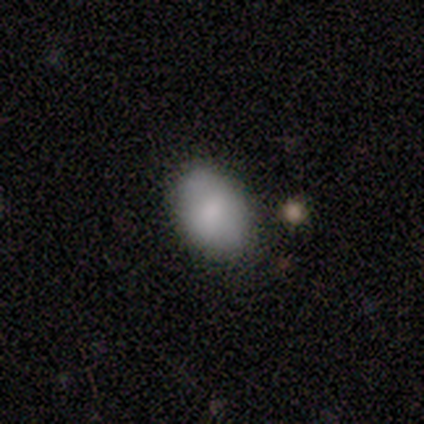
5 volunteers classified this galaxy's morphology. Volunteers were most divided on "how rounded": in between: 67%, round: 33%, cigar-shaped: 0%. More confident: merging — none (75%); smooth or featured — smooth (60%).